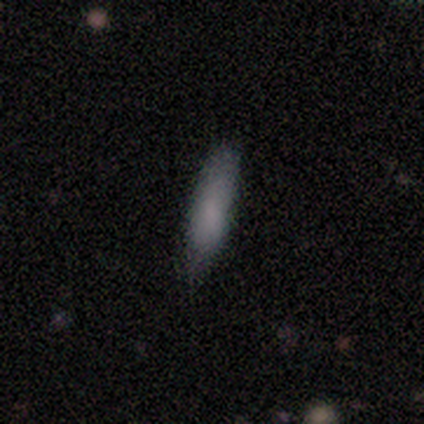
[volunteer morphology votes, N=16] Overall: smooth (69%). How rounded: cigar-shaped (55%; in between 45%). Merging: none (80%).